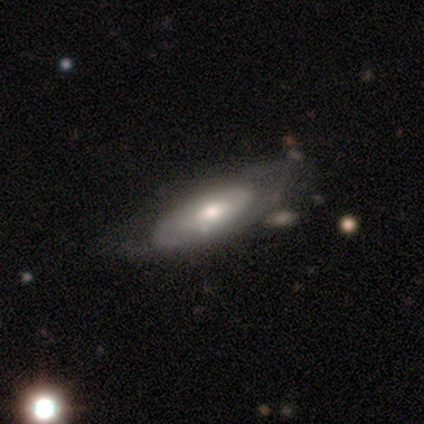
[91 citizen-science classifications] smooth_or_featured: featured or disk (p=0.64) [alt: smooth p=0.30]
disk_edge_on: no (p=0.81) [alt: yes p=0.19]
bar: no (p=0.81) [alt: weak p=0.13]
has_spiral_arms: no (p=0.57) [alt: yes p=0.43]
bulge_size: moderate (p=0.74) [alt: small p=0.19]
merging: none (p=0.62) [alt: minor disturbance p=0.25]